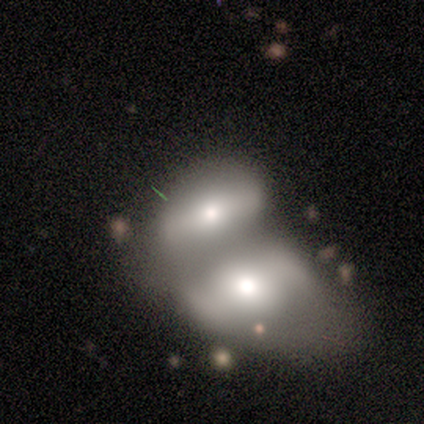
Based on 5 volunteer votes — Morphology: type=smooth (60%); roundness=in between (67%); merging=merger (80%).